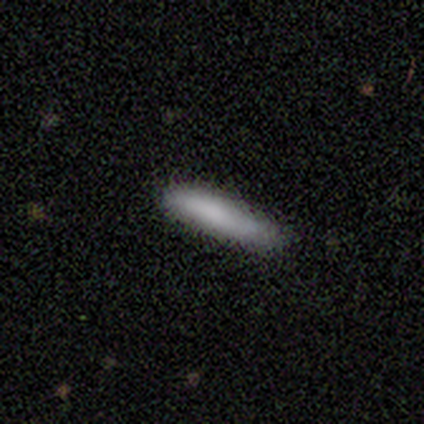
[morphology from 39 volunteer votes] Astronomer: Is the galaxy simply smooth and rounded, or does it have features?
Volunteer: smooth — 87%.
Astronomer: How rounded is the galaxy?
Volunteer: cigar-shaped — 88%.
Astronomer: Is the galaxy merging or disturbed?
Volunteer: none — 76%.